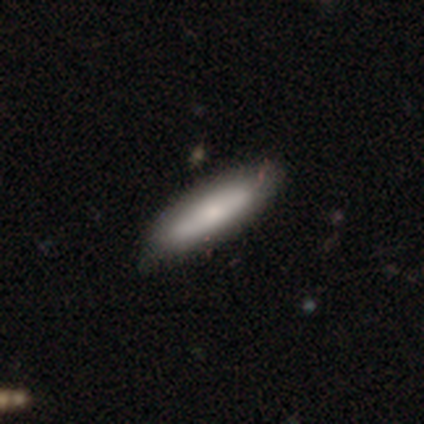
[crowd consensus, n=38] This appears to be a smooth galaxy with no disk features (63%) that is cigar-shaped (83%). Merging: none (47%).